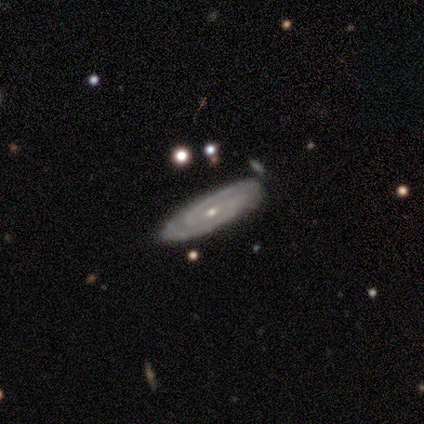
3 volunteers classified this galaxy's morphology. This is clearly a featured or disk galaxy (100%). It is likely not viewed edge-on (67%). Bar: possibly strong (50%, tied with no). Spiral arm pattern: clearly yes (100%). Spiral arm count: possibly 2 (50%, tied with can't tell). Spiral winding: possibly tight (50%, tied with loose). Central bulge: clearly small (100%). Merging: clearly none (100%).